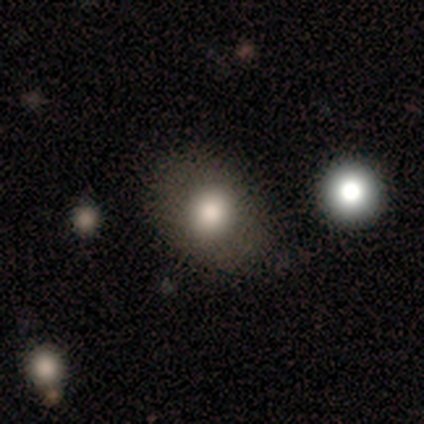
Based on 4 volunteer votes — Volunteers were most divided on "how rounded" (2-way tie): round: 50%, in between: 50%, cigar-shaped: 0%. More confident: merging — none (67%); smooth or featured — smooth (50%).